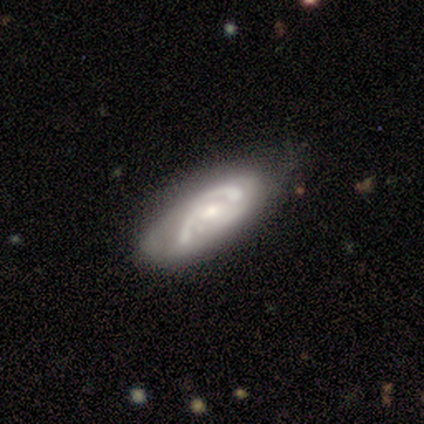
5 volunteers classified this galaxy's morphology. smooth-or-featured: featured or disk: 80% | star or artifact: 20% | smooth: 0%
  disk-edge-on: no: 100% | yes: 0%
    bar: no: 75% | weak: 25% | strong: 0%
    has-spiral-arms: yes: 75% | no: 25%
      spiral-winding: medium: 67% | tight: 33% | loose: 0%
      spiral-arm-count: 2: 33% (tied) | 3: 33% (tied) | can't tell: 33% (tied) | 1: 0% | 4: 0% | more than 4: 0%
    bulge-size: moderate: 50% | large: 25% | small: 25% | dominant: 0% | none: 0%
  merging: none: 50% | minor disturbance: 25% | major disturbance: 25% | merger: 0%